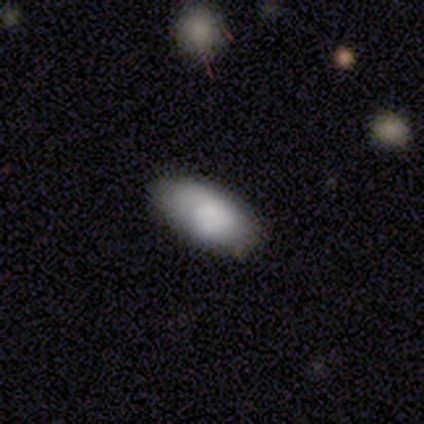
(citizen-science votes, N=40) A smooth galaxy with no disk features (70%) that is in between round and cigar-shaped (96%). Merging: none (89%).